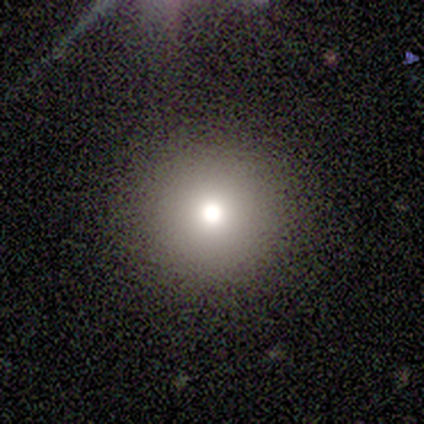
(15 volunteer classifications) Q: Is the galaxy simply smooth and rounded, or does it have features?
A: smooth — 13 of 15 (87%).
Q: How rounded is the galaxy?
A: round — 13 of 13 (100%).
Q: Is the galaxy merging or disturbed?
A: none — 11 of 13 (85%).